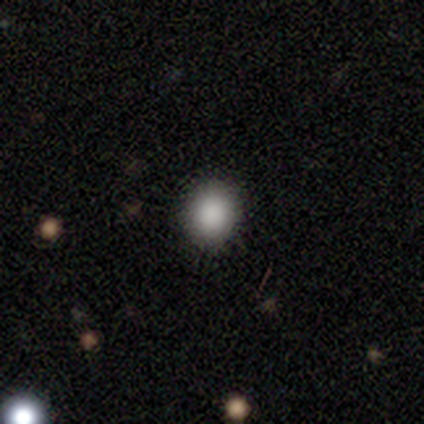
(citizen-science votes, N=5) Smooth or featured: smooth — 100%
How rounded: round — 60% (in between — 40%)
Merging: none — 100%